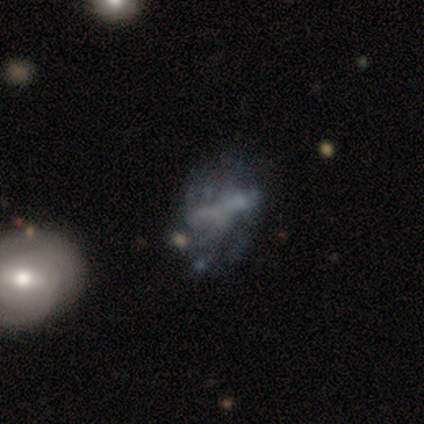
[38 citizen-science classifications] Smooth or featured?
  - featured or disk: 61% *
  - star or artifact: 24%
  - smooth: 16%
Edge-on disk?
  - no: 83% *
  - yes: 17%
Bar?
  - no: 68% *
  - weak: 21%
  - strong: 11%
Spiral arms?
  - no: 68% *
  - yes: 32%
Bulge size?
  - none: 95% *
  - small: 5%
  - dominant: 0%
  - large: 0%
  - moderate: 0%
Merging?
  - major disturbance: 45% *
  - none: 21%
  - minor disturbance: 17%
  - merger: 17%